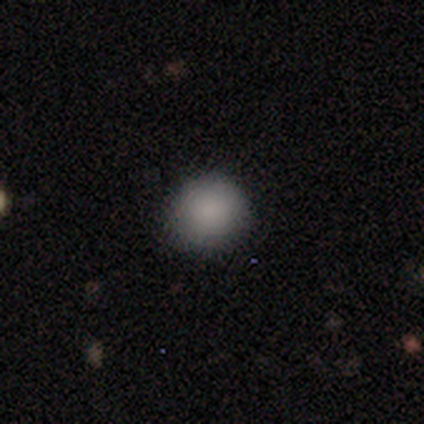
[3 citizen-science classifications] Morphology: type=smooth (100%); roundness=round (100%); merging=none (100%).